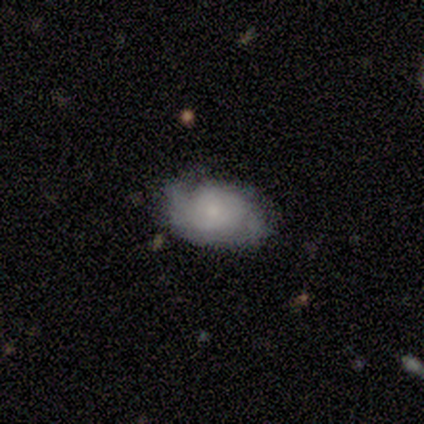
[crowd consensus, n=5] Q: Smooth or featured?
A: featured or disk (80%); runner-up: star or artifact (20%)
Q: Edge-on disk?
A: no (100%)
Q: Bar?
A: no (100%)
Q: Spiral arms?
A: yes (100%)
Q: Spiral winding?
A: tight (50%); tied with: medium (50%)
Q: Spiral arm count?
A: 2 (75%); runner-up: can't tell (25%)
Q: Bulge size?
A: moderate (50%); tied with: small (50%)
Q: Merging?
A: none (75%); runner-up: minor disturbance (25%)